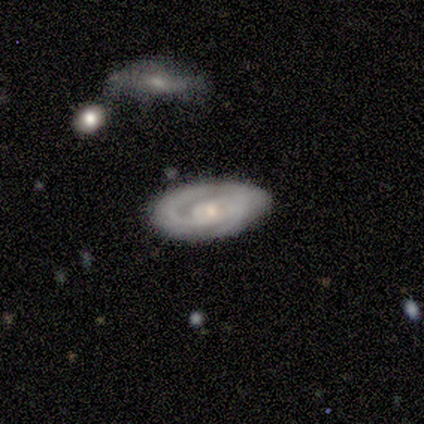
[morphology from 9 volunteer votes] featured or disk 89%, smooth 11%, star or artifact 0%. Down the decision tree: edge-on disk — no (100%); bar — no (62%); spiral arms — yes (100%); spiral arm count — 2 (62%); spiral winding — tight (62%); bulge size — small (88%); merging — none (67%).